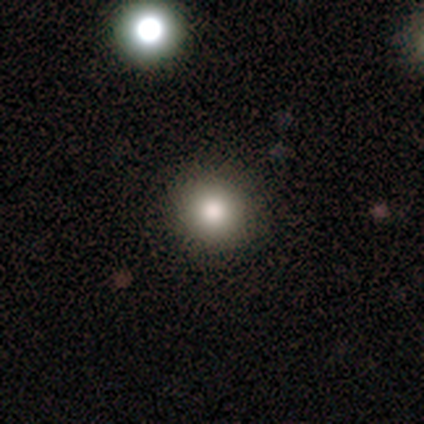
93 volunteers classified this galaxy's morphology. A smooth galaxy with no disk features (80%) that is round (95%). Merging: none (89%).